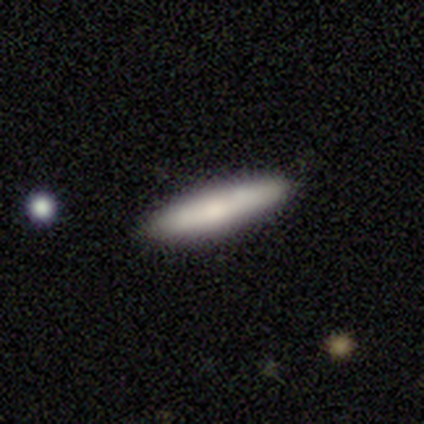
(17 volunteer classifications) Smooth or featured?
  - smooth: 65% *
  - featured or disk: 24%
  - star or artifact: 12%
How rounded?
  - cigar-shaped: 82% *
  - in between: 18%
  - round: 0%
Merging?
  - none: 100% *
  - minor disturbance: 0%
  - major disturbance: 0%
  - merger: 0%